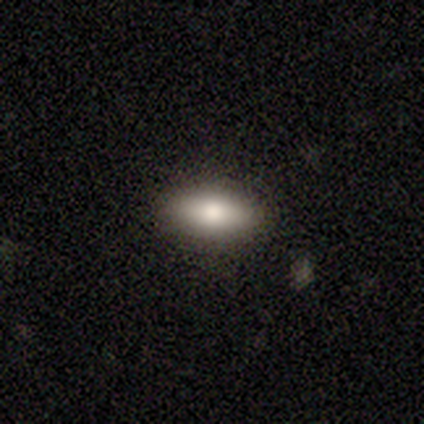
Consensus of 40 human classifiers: Q: Smooth or featured?
A: smooth (80%); runner-up: featured or disk (10%)
Q: How rounded?
A: in between (78%); runner-up: cigar-shaped (22%)
Q: Merging?
A: none (92%); runner-up: minor disturbance (8%)